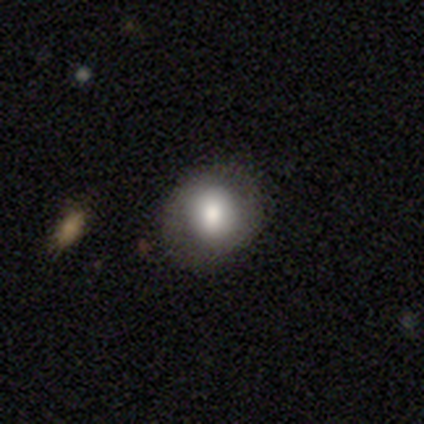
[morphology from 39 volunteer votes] Overall: smooth (87%). How rounded: round (79%). Merging: none (78%).